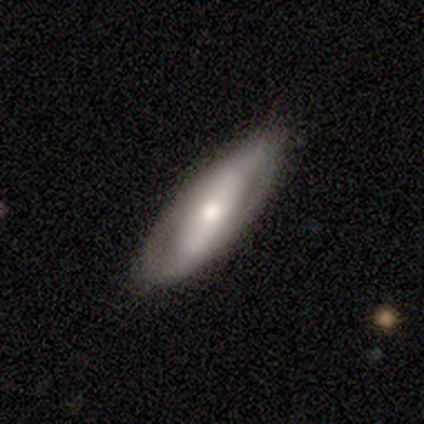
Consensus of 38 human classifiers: smooth 47% (tied), featured or disk 47% (tied), star or artifact 5%. Down the decision tree: how rounded — in between (78%); merging — none (75%).